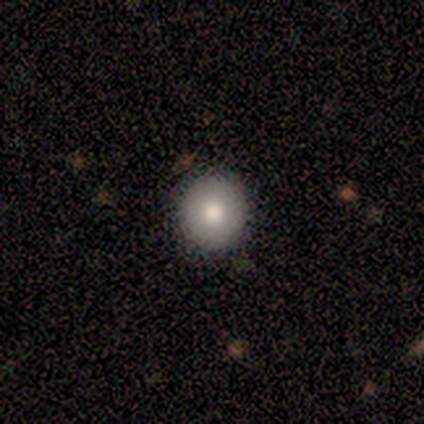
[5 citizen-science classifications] Morphology: type=smooth (80%); roundness=round (100%); merging=none (100%).